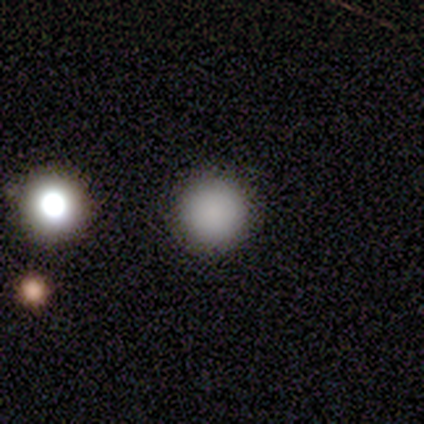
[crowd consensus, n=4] Q: Smooth or featured?
A: smooth (100%)
Q: How rounded?
A: round (100%)
Q: Merging?
A: none (100%)